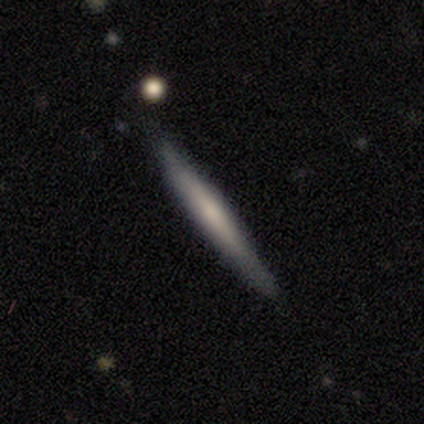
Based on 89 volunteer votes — Smooth or featured?
  - featured or disk: 53% *
  - smooth: 42%
  - star or artifact: 6%
Edge-on disk?
  - yes: 94% *
  - no: 6%
Edge-on bulge?
  - none: 59% *
  - rounded: 27%
  - boxy: 14%
Merging?
  - none: 76% *
  - minor disturbance: 21%
  - merger: 2%
  - major disturbance: 0%